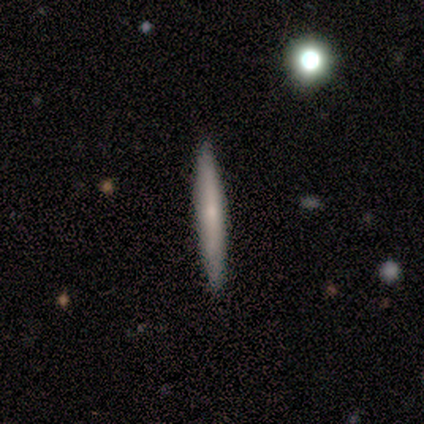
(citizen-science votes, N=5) featured or disk 60%, smooth 40%, star or artifact 0%. Down the decision tree: edge-on disk — no (67%); bar — weak (50%, tied with no); spiral arms — no (100%); bulge size — small (50%, tied with none); merging — none (80%).